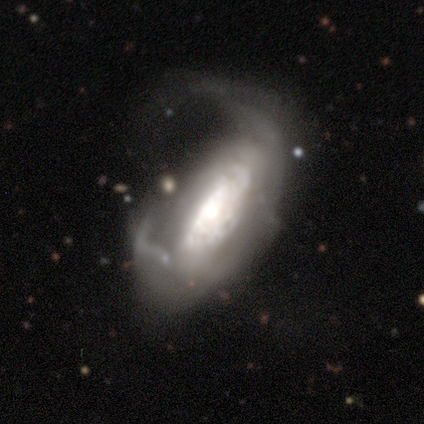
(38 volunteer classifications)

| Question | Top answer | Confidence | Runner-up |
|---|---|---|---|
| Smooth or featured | featured or disk | 84% | smooth (11%) |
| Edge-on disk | no | 94% | yes (6%) |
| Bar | no | 60% | strong (23%) |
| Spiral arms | yes | 73% | no (27%) |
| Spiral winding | medium | 45% | tight (36%) |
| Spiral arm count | can't tell | 59% | 2 (18%) |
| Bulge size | large | 37% | moderate (30%) |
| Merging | major disturbance | 83% | minor disturbance (11%) |